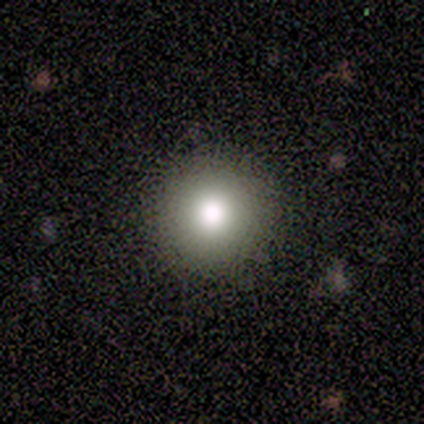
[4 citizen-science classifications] Q: Smooth or featured?
A: smooth (75%); runner-up: star or artifact (25%)
Q: How rounded?
A: round (100%)
Q: Merging?
A: none (100%)